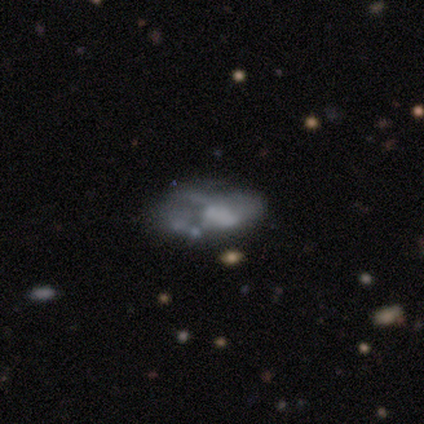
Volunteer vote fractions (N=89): Smooth or featured? 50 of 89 (56%) said featured or disk. Edge-on disk? 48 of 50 (96%) said no. Bar? 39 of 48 (81%) said no. Spiral arms? 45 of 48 (94%) said no. Bulge size? 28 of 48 (58%) said none. Merging? 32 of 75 (43%) said none.